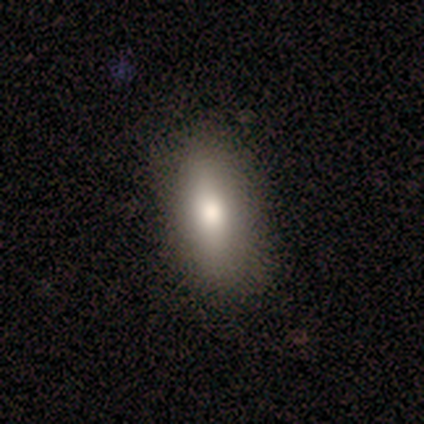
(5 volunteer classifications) Volunteers were most divided on "smooth or featured": smooth: 60%, featured or disk: 20%, star or artifact: 20%. More confident: how rounded — in between (100%); merging — none (75%).